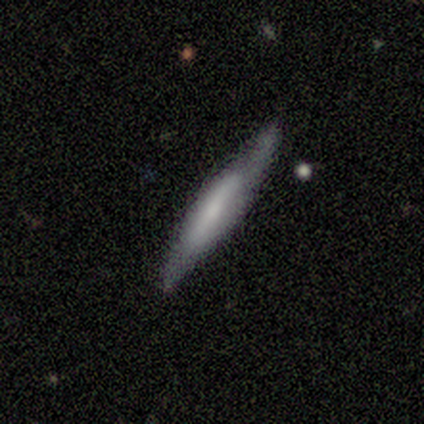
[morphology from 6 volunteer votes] Q: Smooth or featured?
A: smooth (50%); tied with: featured or disk (50%)
Q: How rounded?
A: cigar-shaped (100%)
Q: Merging?
A: none (67%); runner-up: minor disturbance (33%)